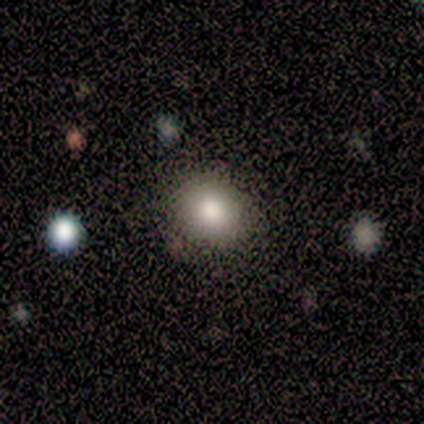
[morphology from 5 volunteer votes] A smooth galaxy with no disk features (80%) that is round (75%). Merging: none (100%).